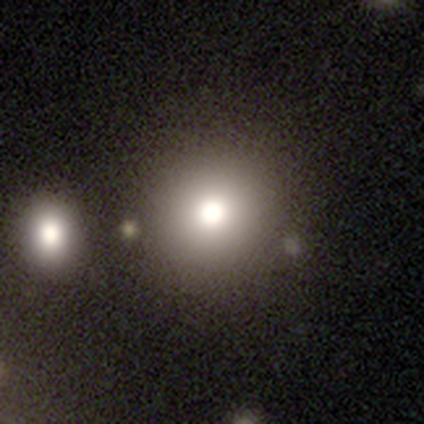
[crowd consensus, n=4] smooth 75%, featured or disk 25%, star or artifact 0%. Down the decision tree: how rounded — round (67%); merging — none (50%, tied with minor disturbance).